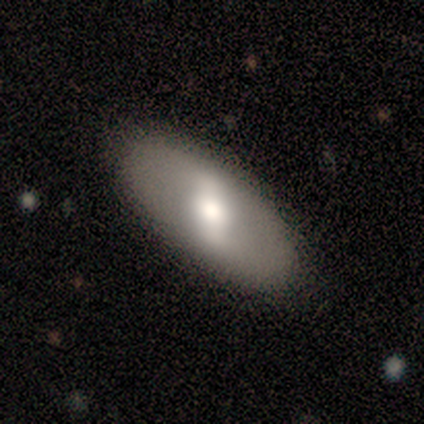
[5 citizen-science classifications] Smooth or featured: featured or disk — 40% (tied with star or artifact — 40%)
Edge-on disk: yes — 50% (tied with no — 50%)
Edge-on bulge: rounded — 100%
Merging: none — 100%